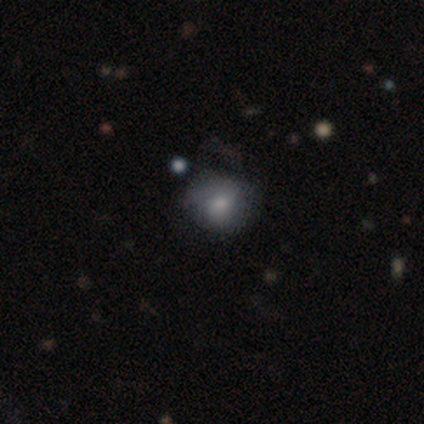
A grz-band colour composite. It shows a smooth galaxy with no disk features (50%) that is round (80%). Merging: none (56%).